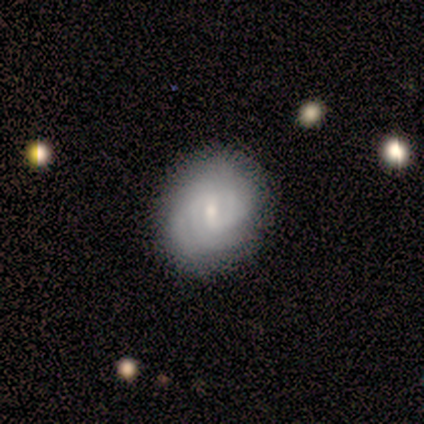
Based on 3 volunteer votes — A featured or disk galaxy (100%) with no bar (67%), 2 (33%, tied with 3 and 4) tight (67%) spiral arms (100%) and a small central bulge (100%). Merging: none (100%).